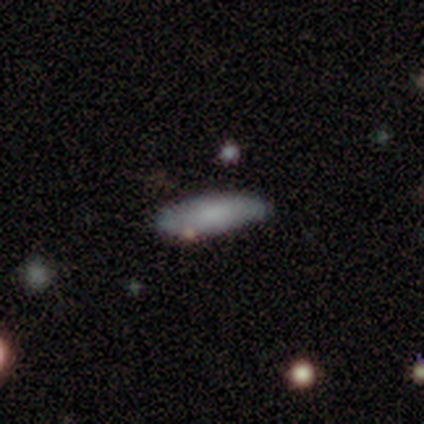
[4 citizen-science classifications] smooth_or_featured: smooth (p=1.00)
how_rounded: in between (p=0.50) [tied with: cigar-shaped p=0.50]
merging: none (p=0.50) [tied with: minor disturbance p=0.50]